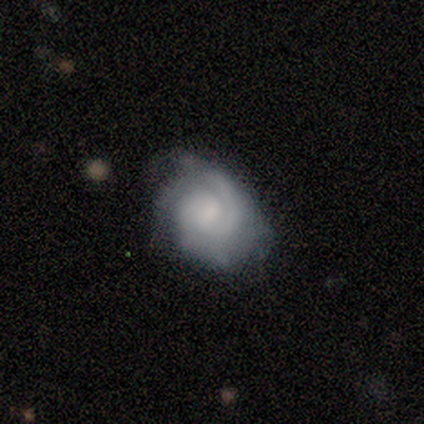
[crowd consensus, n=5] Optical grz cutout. It shows a featured or disk galaxy (100%) with no bar (60%), 2 (50%, tied with can't tell) tight (100%) spiral arms (80%) and no central bulge (40%). Merging: none (80%).